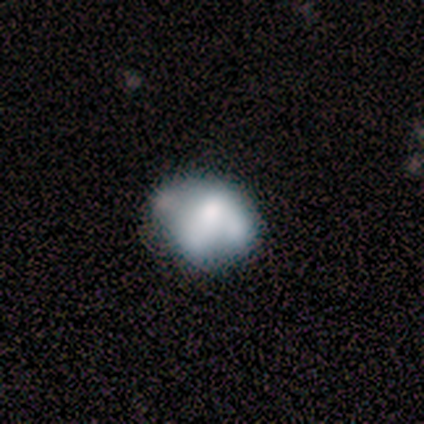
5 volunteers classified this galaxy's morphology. Smooth or featured?
  - smooth: 80% *
  - featured or disk: 20%
  - star or artifact: 0%
How rounded?
  - in between: 100% *
  - round: 0%
  - cigar-shaped: 0%
Merging?
  - none: 60% *
  - minor disturbance: 20%
  - major disturbance: 20%
  - merger: 0%